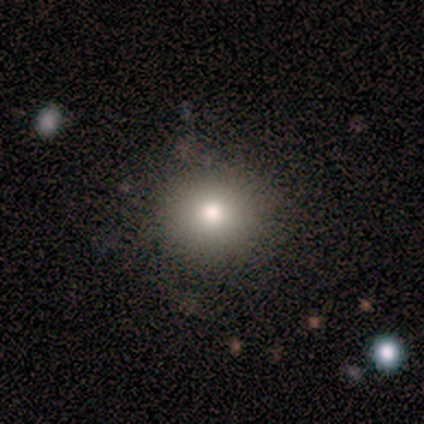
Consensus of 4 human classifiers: A smooth galaxy with no disk features (100%) that is round (100%). Merging: none (100%).